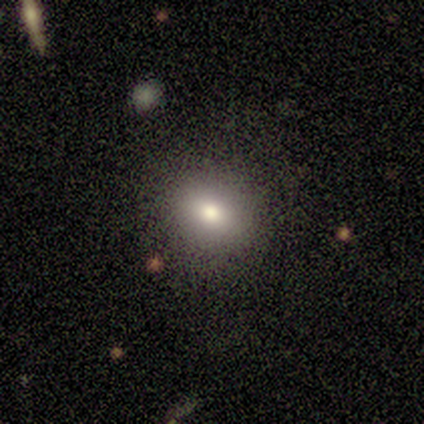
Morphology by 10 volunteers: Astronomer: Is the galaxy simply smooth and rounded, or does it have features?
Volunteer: smooth — 80%.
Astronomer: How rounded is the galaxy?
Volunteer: round — 50%, tied with in between at 50%.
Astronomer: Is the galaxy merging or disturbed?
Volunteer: none — 80%.